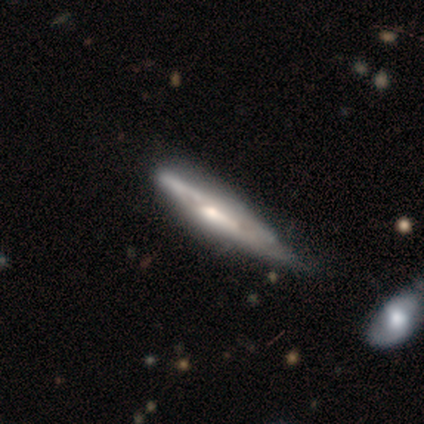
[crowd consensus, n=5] Smooth or featured? 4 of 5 (80%) said featured or disk. Edge-on disk? 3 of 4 (75%) said yes. Edge-on bulge? 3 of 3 (100%) said rounded. Merging? 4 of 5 (80%) said minor disturbance.